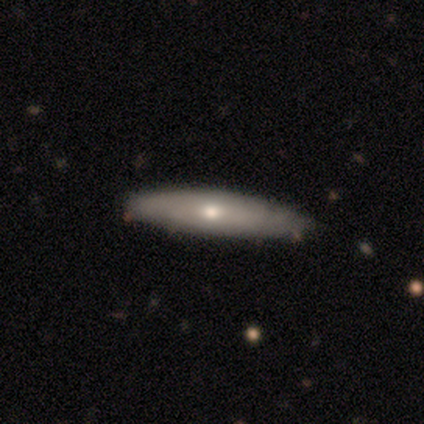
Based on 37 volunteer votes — smooth-or-featured: smooth: 54% | featured or disk: 43% | star or artifact: 3%
  how-rounded: cigar-shaped: 80% | in between: 20% | round: 0%
  merging: none: 83% | minor disturbance: 17% | major disturbance: 0% | merger: 0%